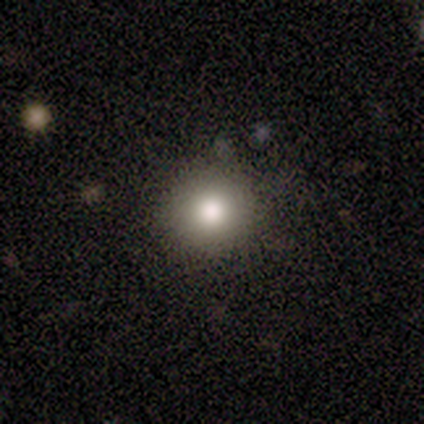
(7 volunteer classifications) Q: Smooth or featured?
A: smooth (86%); runner-up: star or artifact (14%)
Q: How rounded?
A: round (83%); runner-up: in between (17%)
Q: Merging?
A: none (67%); runner-up: minor disturbance (33%)